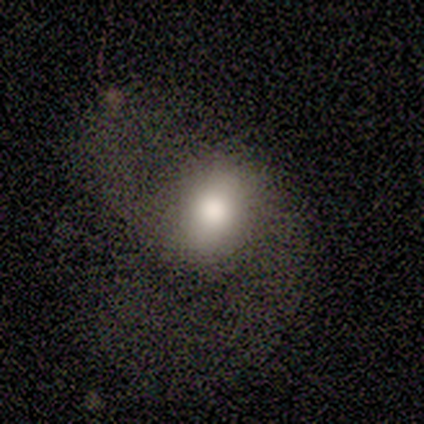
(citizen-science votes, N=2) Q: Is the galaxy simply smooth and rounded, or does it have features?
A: smooth — 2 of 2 (100%).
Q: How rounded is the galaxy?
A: in between — 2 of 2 (100%).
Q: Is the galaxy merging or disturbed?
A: none — 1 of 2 (50%, tied with major disturbance).